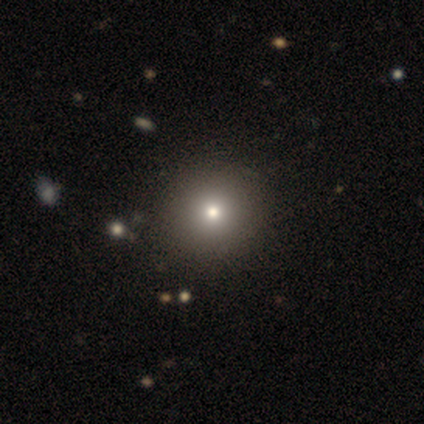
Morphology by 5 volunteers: Smooth or featured? 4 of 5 (80%) said smooth. How rounded? 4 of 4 (100%) said round. Merging? 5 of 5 (100%) said none.